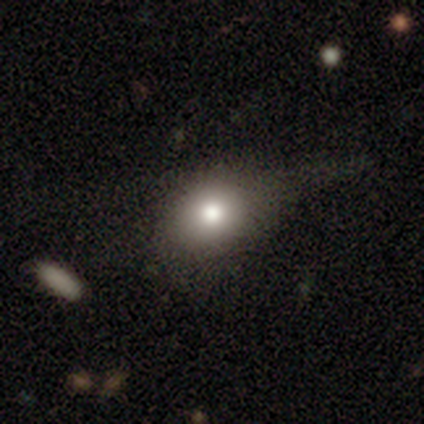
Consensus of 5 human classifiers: Smooth or featured? 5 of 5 (100%) said smooth. How rounded? 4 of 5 (80%) said in between. Merging? 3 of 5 (60%) said none.